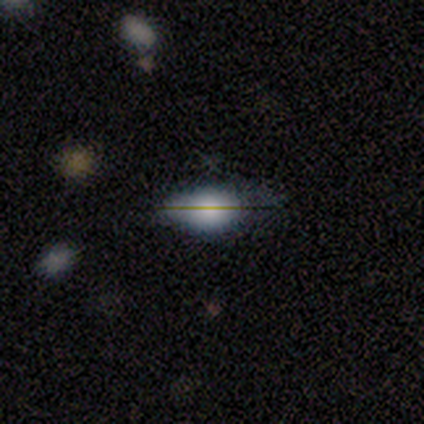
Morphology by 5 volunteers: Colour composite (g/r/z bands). It shows a smooth galaxy with no disk features (80%) that is in between round and cigar-shaped (75%). Merging: none (40%, tied with minor disturbance).